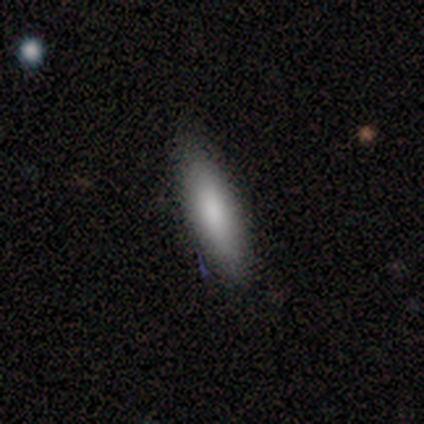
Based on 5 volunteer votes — A smooth galaxy with no disk features (80%) that is in between round and cigar-shaped (50%, tied with cigar-shaped). Merging: none (80%).